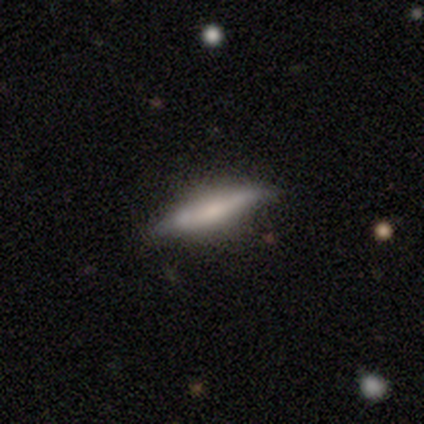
Smooth or featured?
  - smooth: 60% *
  - featured or disk: 40%
  - star or artifact: 0%
How rounded?
  - cigar-shaped: 100% *
  - round: 0%
  - in between: 0%
Merging?
  - none: 60% *
  - minor disturbance: 40%
  - major disturbance: 0%
  - merger: 0%